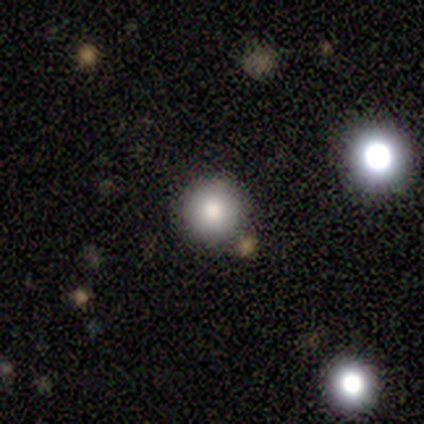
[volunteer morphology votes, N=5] smooth-or-featured: smooth: 80% | featured or disk: 20% | star or artifact: 0%
  how-rounded: round: 100% | in between: 0% | cigar-shaped: 0%
  merging: none: 100% | minor disturbance: 0% | major disturbance: 0% | merger: 0%